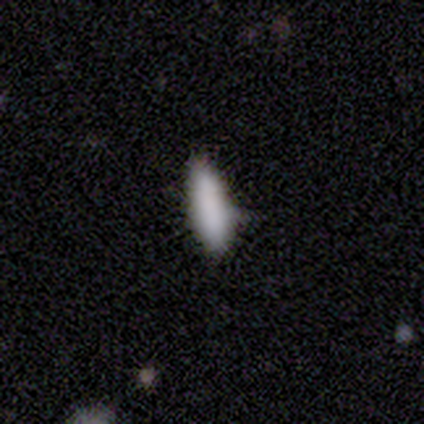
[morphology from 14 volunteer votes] smooth 93%, featured or disk 7%, star or artifact 0%. Down the decision tree: how rounded — cigar-shaped (54%); merging — none (50%).